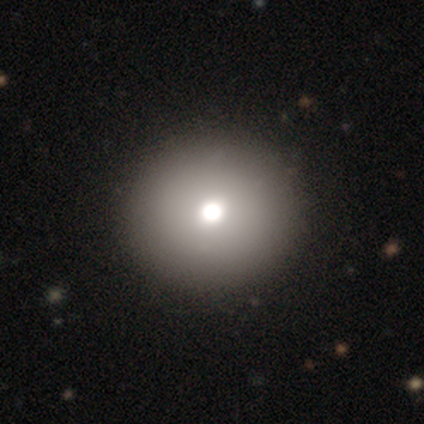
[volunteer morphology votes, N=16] This appears to be a smooth galaxy with no disk features (38%, tied with star or artifact) that is round (83%). Merging: none (90%).